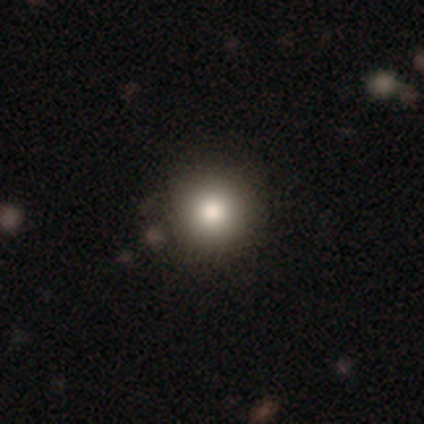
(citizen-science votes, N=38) smooth_or_featured: smooth (p=0.79) [alt: featured or disk p=0.13]
how_rounded: round (p=0.97) [alt: in between p=0.03]
merging: none (p=0.83) [alt: minor disturbance p=0.14]